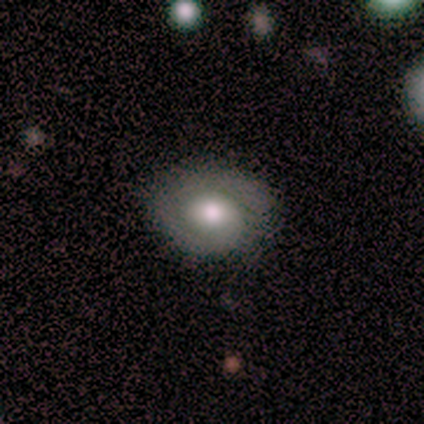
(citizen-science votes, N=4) smooth_or_featured: featured or disk (p=0.50) [alt: smooth p=0.25]
disk_edge_on: no (p=1.00)
bar: strong (p=0.50) [tied with: no p=0.50]
has_spiral_arms: yes (p=1.00)
spiral_winding: tight (p=1.00)
spiral_arm_count: 1 (p=1.00)
bulge_size: moderate (p=1.00)
merging: none (p=0.67) [alt: minor disturbance p=0.33]